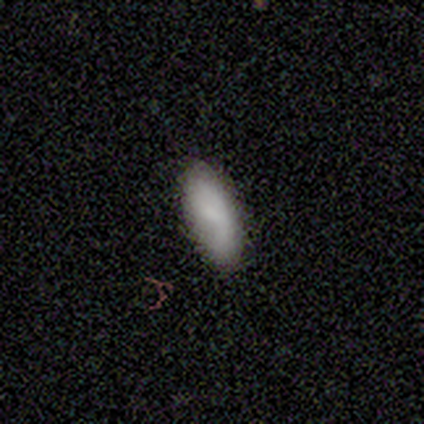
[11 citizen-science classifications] smooth 91%, featured or disk 9%, star or artifact 0%. Down the decision tree: how rounded — in between (70%); merging — none (73%).